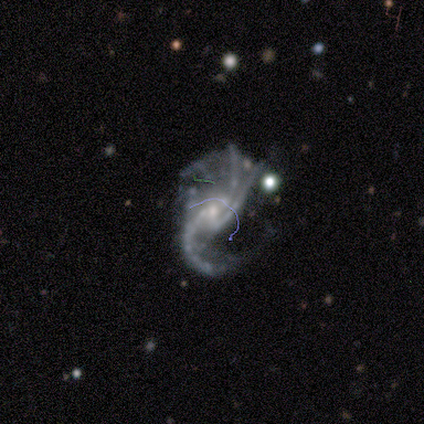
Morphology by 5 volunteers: smooth_or_featured: featured or disk (p=1.00)
disk_edge_on: no (p=1.00)
bar: no (p=0.80) [alt: strong p=0.20]
has_spiral_arms: yes (p=1.00)
spiral_winding: loose (p=1.00)
spiral_arm_count: 3 (p=0.40) [alt: 2 p=0.20]
bulge_size: small (p=0.80) [alt: moderate p=0.20]
merging: none (p=0.40) [tied with: minor disturbance p=0.40]